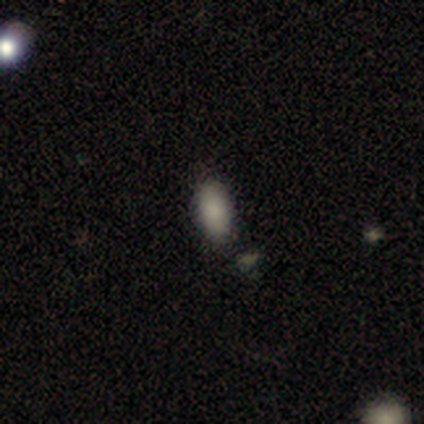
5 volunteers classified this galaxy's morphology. Smooth or featured? 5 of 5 (100%) said smooth. How rounded? 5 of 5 (100%) said in between. Merging? 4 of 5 (80%) said none.